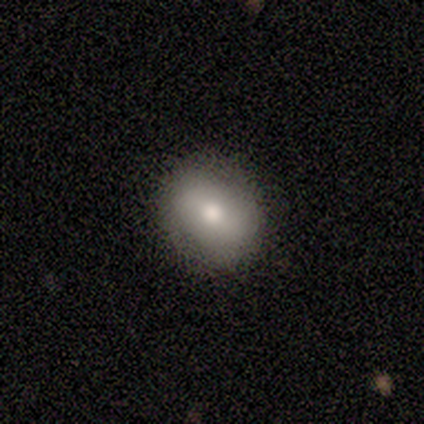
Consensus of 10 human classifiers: Smooth or featured? 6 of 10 (60%) said smooth. How rounded? 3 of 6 (50%, tied with in between) said round. Merging? 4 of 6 (67%) said none.